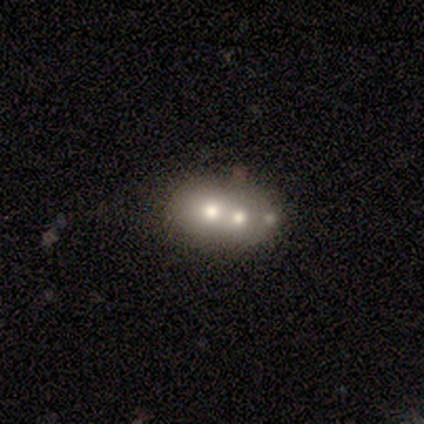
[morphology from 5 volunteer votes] This is likely a featured or disk galaxy (60%). It is clearly not viewed edge-on (100%). Bar: clearly no (100%). Spiral arm pattern: clearly no (100%). Central bulge: marginally moderate (33%, tied with small and none). Merging: likely merger (60%).